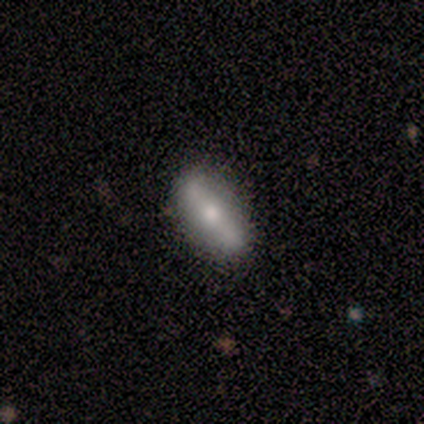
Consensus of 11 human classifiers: smooth 55%, featured or disk 45%, star or artifact 0%. Down the decision tree: how rounded — in between (83%); merging — none (82%).